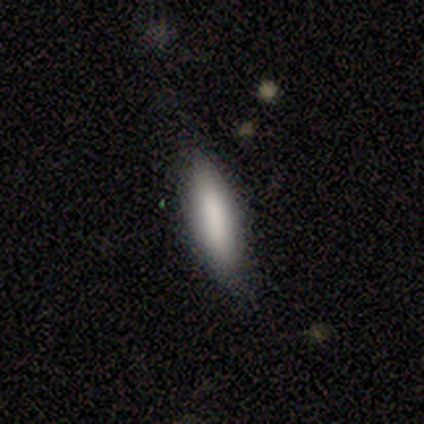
A smooth galaxy with no disk features (60%) that is in between round and cigar-shaped (67%).

Vote fractions:
- Smooth or featured? smooth: 60% / featured or disk: 20% / star or artifact: 20%
- How rounded? in between: 67% / cigar-shaped: 33% / round: 0%
- Merging? none: 100% / minor disturbance: 0% / major disturbance: 0% / merger: 0%